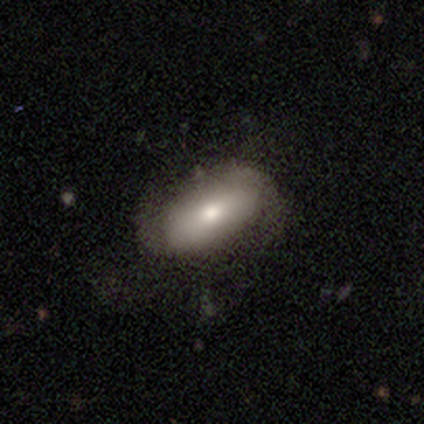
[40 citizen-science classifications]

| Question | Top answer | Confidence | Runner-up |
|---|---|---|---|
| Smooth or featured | smooth | 65% | featured or disk (32%) |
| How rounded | in between | 88% | cigar-shaped (12%) |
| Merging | none | 62% | minor disturbance (31%) |